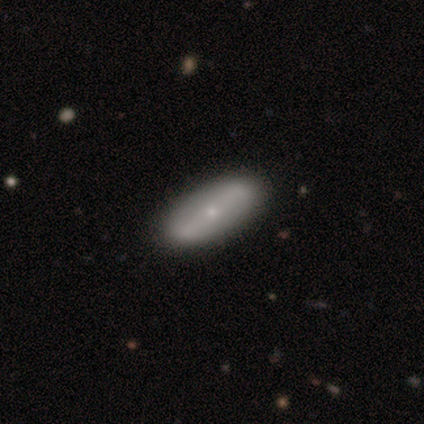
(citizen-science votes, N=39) Volunteers were most divided on "smooth or featured": featured or disk: 49%, smooth: 44%, star or artifact: 8%. More confident: bulge size — small (88%); edge-on disk — no (84%); merging — none (75%); spiral arms — no (62%); bar — no (56%).